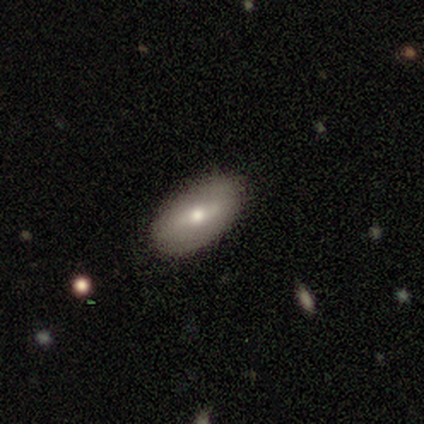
Smooth or featured? 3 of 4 (75%) said featured or disk. Edge-on disk? 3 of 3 (100%) said no. Bar? 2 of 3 (67%) said no. Spiral arms? 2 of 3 (67%) said no. Bulge size? 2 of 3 (67%) said moderate. Merging? 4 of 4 (100%) said none.